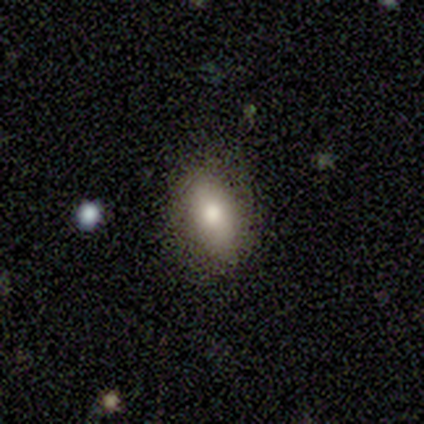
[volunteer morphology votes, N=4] type=smooth (50%, tied with featured or disk); roundness=in between (100%); merging=none (75%).